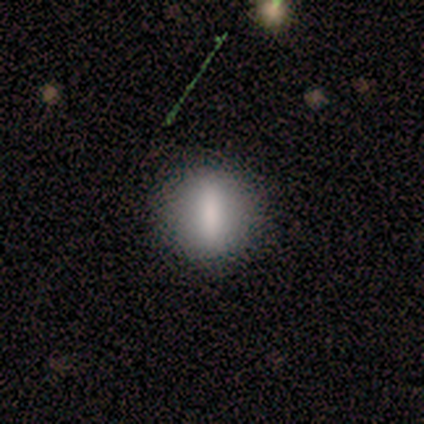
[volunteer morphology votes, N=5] Smooth or featured? smooth (80%)
How rounded? in between (50%)
Merging? none (100%)